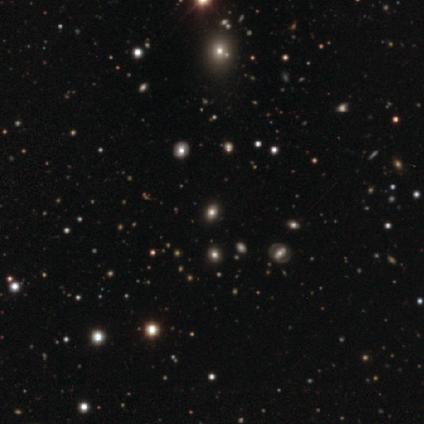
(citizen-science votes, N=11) Morphology: type=star or artifact (45%).